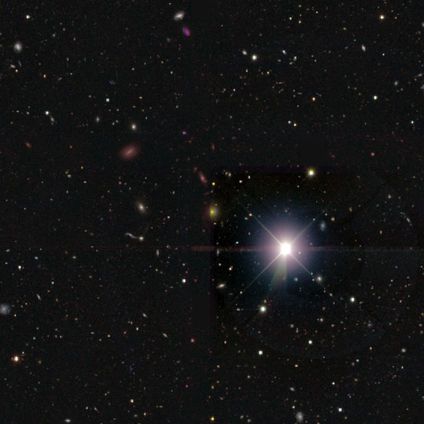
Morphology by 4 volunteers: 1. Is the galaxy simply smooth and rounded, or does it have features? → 100% star or artifact, 0% smooth, 0% featured or disk.